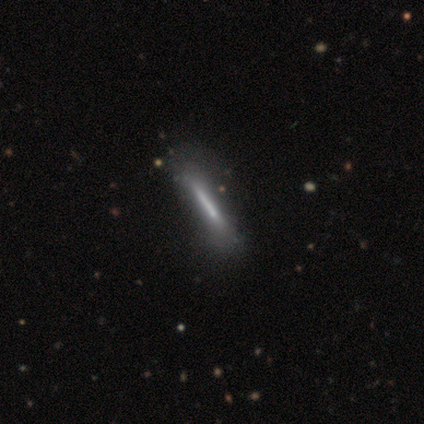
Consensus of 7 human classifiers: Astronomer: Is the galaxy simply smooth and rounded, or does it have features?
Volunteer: smooth — 57% (runner-up: featured or disk, 43%).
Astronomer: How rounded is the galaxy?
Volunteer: cigar-shaped — 100%.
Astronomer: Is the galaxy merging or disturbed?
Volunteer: none — 100%.